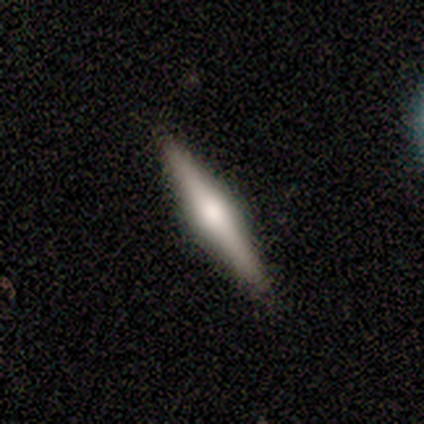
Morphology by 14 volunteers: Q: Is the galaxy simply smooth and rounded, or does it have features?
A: featured or disk — 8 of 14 (57%).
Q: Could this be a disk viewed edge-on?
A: yes — 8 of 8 (100%).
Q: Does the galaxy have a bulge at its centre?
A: rounded — 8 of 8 (100%).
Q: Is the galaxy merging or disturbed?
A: none — 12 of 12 (100%).